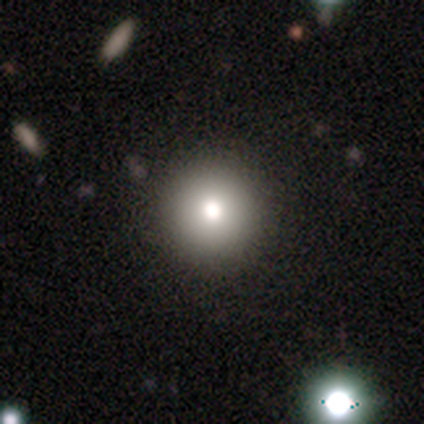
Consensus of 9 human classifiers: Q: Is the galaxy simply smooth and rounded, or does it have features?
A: smooth — 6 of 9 (67%).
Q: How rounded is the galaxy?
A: round — 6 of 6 (100%).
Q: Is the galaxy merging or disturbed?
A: none — 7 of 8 (88%).